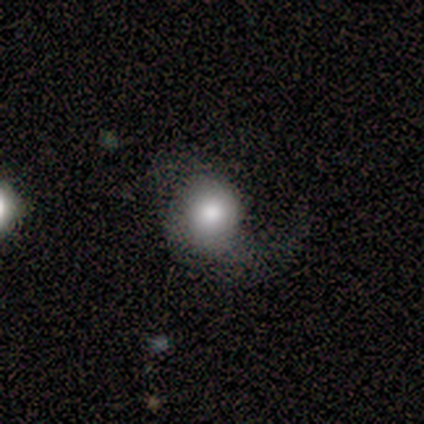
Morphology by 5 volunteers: A featured or disk galaxy (60%) with no bar (67%), 1 (100%) loose (100%) spiral arms (100%) and a moderate central bulge (67%).

Vote fractions:
- Smooth or featured? featured or disk: 60% / smooth: 40% / star or artifact: 0%
- Edge-on disk? no: 100% / yes: 0%
- Bar? no: 67% / weak: 33% / strong: 0%
- Spiral arms? yes: 100% / no: 0%
- Spiral winding? loose: 100% / tight: 0% / medium: 0%
- Spiral arm count? 1: 100% / 2: 0% / 3: 0% / 4: 0% / more than 4: 0% / can't tell: 0%
- Bulge size? moderate: 67% / large: 33% / dominant: 0% / small: 0% / none: 0%
- Merging? minor disturbance: 40% (tied) / major disturbance: 40% (tied) / none: 20% / merger: 0%